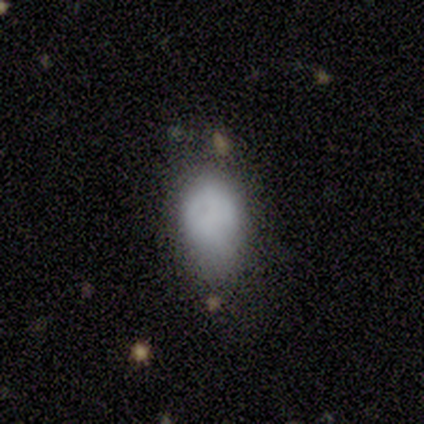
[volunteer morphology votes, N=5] Q: Smooth or featured?
A: smooth (60%); runner-up: featured or disk (40%)
Q: How rounded?
A: in between (67%); runner-up: cigar-shaped (33%)
Q: Merging?
A: minor disturbance (60%); runner-up: none (40%)